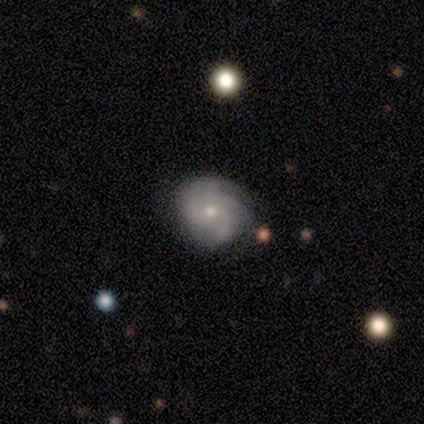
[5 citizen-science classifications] Smooth or featured? featured or disk (100%)
Edge-on disk? no (100%)
Bar? no (80%)
Spiral arms? yes (100%)
Spiral winding? medium (60%)
Spiral arm count? 2 (40%, tied with can't tell)
Bulge size? small (80%)
Merging? none (80%)